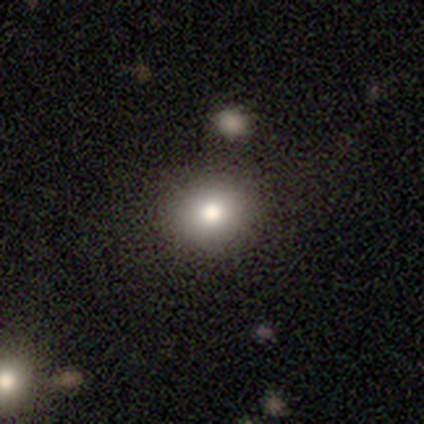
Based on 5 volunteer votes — Smooth or featured? smooth (60%)
How rounded? round (100%)
Merging? none (100%)